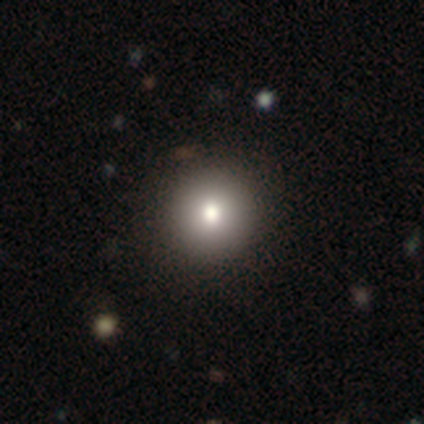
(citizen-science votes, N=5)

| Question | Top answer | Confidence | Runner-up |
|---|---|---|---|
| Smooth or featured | smooth | 80% | star or artifact (20%) |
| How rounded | round | 75% | in between (25%) |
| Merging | none | 50% | minor disturbance (25%) |